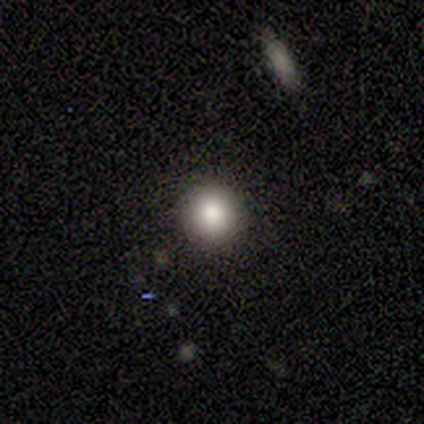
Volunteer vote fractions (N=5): Morphology: type=smooth (80%); roundness=round (75%); merging=none (100%).